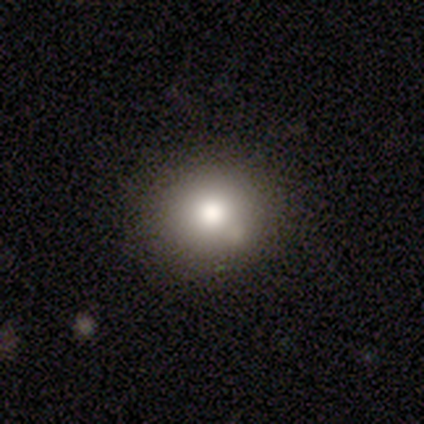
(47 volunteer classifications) Overall: smooth (81%). How rounded: round (84%). Merging: none (86%).